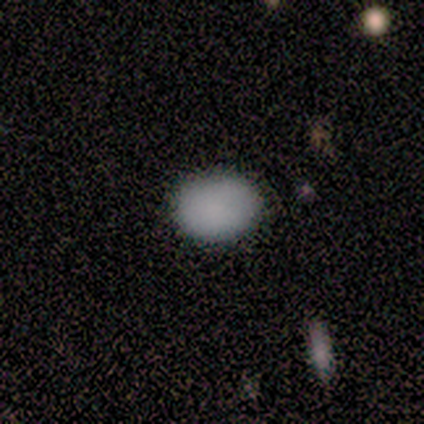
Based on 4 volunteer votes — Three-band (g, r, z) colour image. It shows a smooth galaxy with no disk features (100%) that is round (50%, tied with in between). Merging: none (75%).